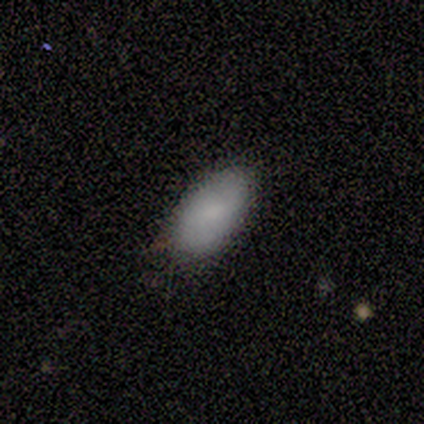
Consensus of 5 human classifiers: Q: Smooth or featured?
A: smooth (100%)
Q: How rounded?
A: in between (80%); runner-up: cigar-shaped (20%)
Q: Merging?
A: none (40%); tied with: minor disturbance (40%)